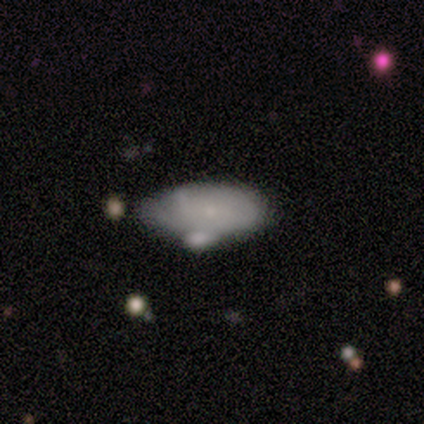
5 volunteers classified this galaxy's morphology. A featured or disk galaxy (60%) with no bar (67%), no spiral arms (67%) and a dominant central bulge (33%, tied with small and none).

Vote fractions:
- Smooth or featured? featured or disk: 60% / smooth: 40% / star or artifact: 0%
- Edge-on disk? no: 100% / yes: 0%
- Bar? no: 67% / weak: 33% / strong: 0%
- Spiral arms? no: 67% / yes: 33%
- Bulge size? dominant: 33% (tied) / small: 33% (tied) / none: 33% (tied) / large: 0% / moderate: 0%
- Merging? none: 40% (tied) / minor disturbance: 40% (tied) / merger: 20% / major disturbance: 0%